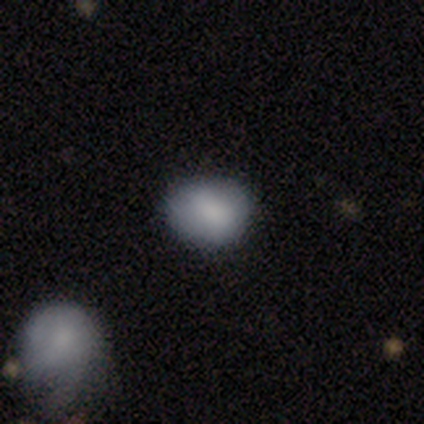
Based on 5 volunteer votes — Overall: smooth (100%). How rounded: in between (80%). Merging: none (80%).